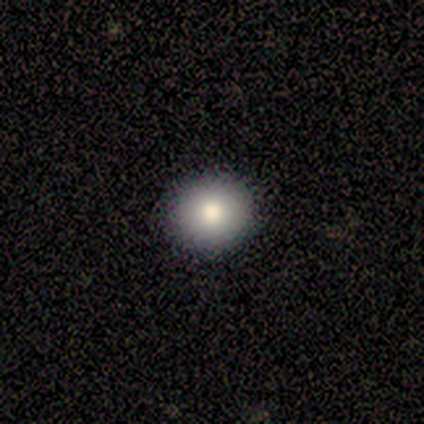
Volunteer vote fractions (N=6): Smooth or featured? 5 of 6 (83%) said smooth. How rounded? 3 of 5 (60%) said round. Merging? 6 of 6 (100%) said none.